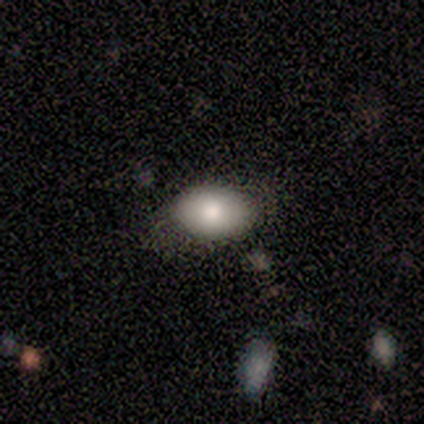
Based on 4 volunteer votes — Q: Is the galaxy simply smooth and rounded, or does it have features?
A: smooth — 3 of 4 (75%).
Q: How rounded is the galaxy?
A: in between — 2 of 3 (67%).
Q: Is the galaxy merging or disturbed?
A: none — 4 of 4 (100%).